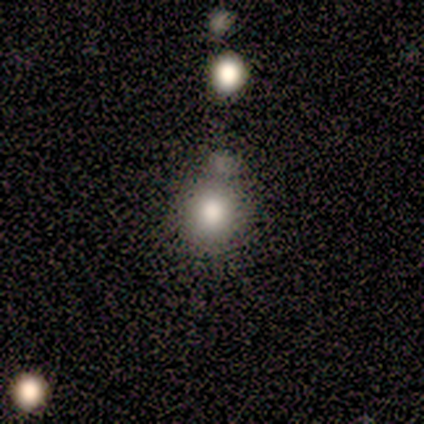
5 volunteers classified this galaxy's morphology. Overall: smooth (60%; featured or disk 20%). How rounded: round (100%). Merging: none (75%).